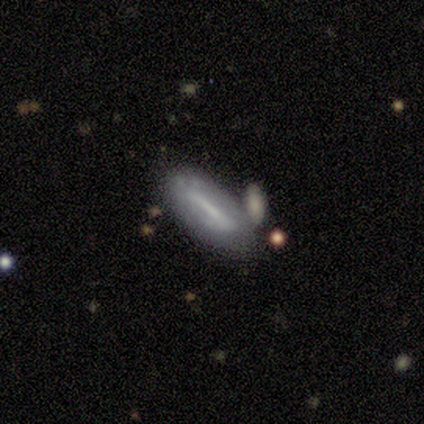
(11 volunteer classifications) Volunteers were most divided on "edge-on disk": yes: 56%, no: 44%. More confident: smooth or featured — featured or disk (82%); edge-on bulge — none (60%); merging — none (55%).